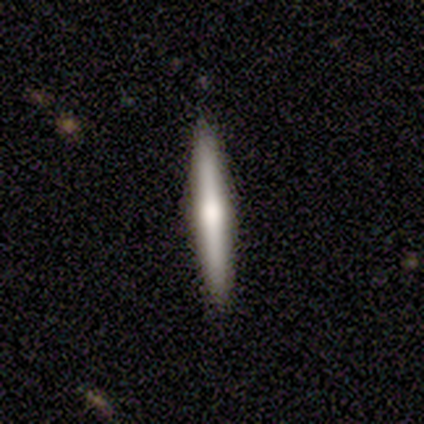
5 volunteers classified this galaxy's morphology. type=featured or disk (60%); edge-on=yes (100%); edge-on bulge=rounded (100%); merging=none (80%).